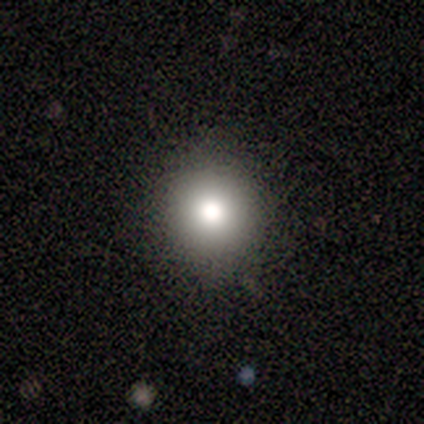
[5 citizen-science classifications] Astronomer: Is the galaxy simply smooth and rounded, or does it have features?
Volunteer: smooth — 60% (runner-up: star or artifact, 40%).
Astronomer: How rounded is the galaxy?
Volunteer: round — 100%.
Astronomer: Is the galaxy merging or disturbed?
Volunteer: none — 100%.